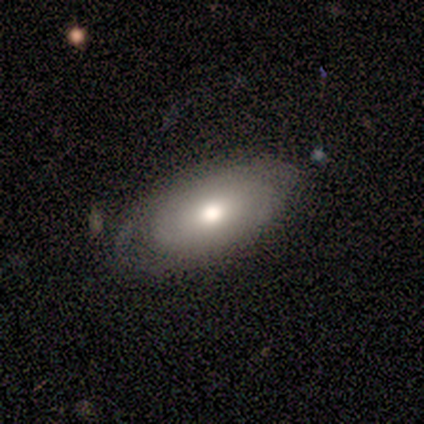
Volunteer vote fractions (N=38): smooth-or-featured: smooth: 66% | featured or disk: 26% | star or artifact: 8%
  how-rounded: in between: 96% | cigar-shaped: 4% | round: 0%
  merging: none: 66% | minor disturbance: 29% | major disturbance: 6% | merger: 0%